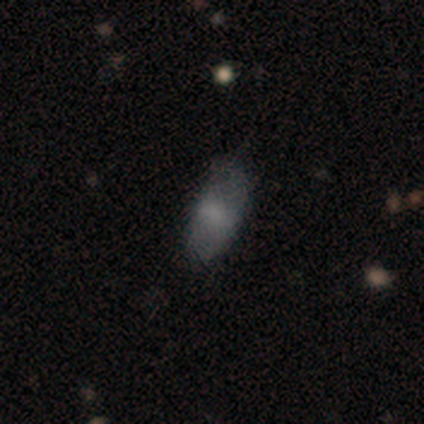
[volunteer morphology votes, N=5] Overall: smooth (60%; featured or disk 40%). How rounded: in between (100%). Merging: none (100%).